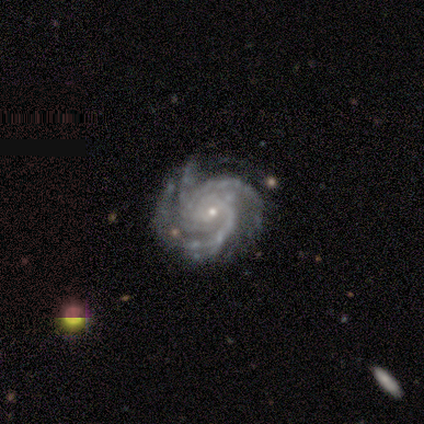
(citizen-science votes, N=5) Smooth or featured? 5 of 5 (100%) said featured or disk. Edge-on disk? 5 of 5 (100%) said no. Bar? 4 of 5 (80%) said no. Spiral arms? 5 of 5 (100%) said yes. Spiral winding? 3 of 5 (60%) said tight. Spiral arm count? 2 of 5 (40%, tied with 4) said 3. Bulge size? 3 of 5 (60%) said small. Merging? 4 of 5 (80%) said none.